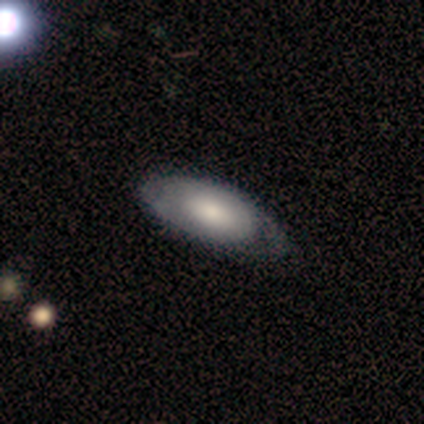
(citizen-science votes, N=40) smooth_or_featured: smooth (p=0.47) [alt: featured or disk p=0.42]
how_rounded: in between (p=0.95) [alt: cigar-shaped p=0.05]
merging: none (p=0.50) [alt: minor disturbance p=0.19]